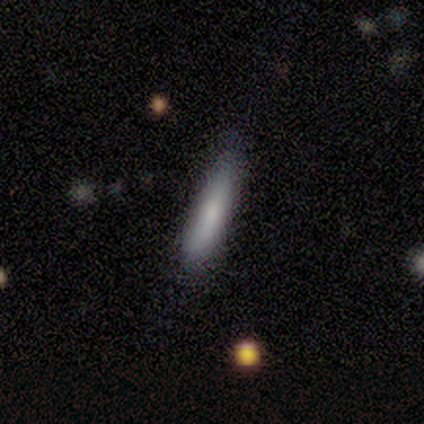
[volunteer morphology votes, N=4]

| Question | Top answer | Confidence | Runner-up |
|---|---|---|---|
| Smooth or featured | smooth | 100% | — |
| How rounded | cigar-shaped | 100% | — |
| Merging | none | 50% | tied: minor disturbance (50%) |